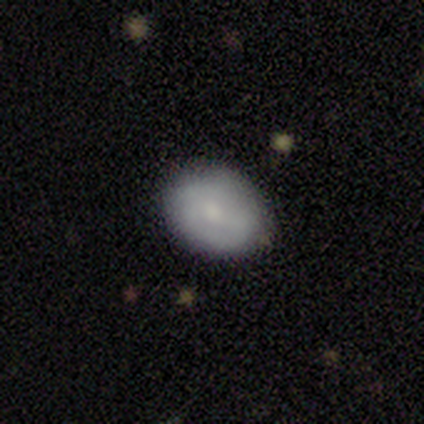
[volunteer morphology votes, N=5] type=featured or disk (60%); edge-on=no (100%); bar=no (100%); spiral arms=no (67%); bulge=small (67%); merging=none (100%).